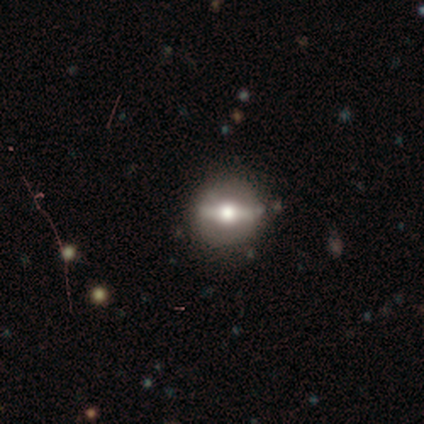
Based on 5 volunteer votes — A featured or disk galaxy (60%) viewed edge-on (67%) with a rounded central bulge (100%).

Vote fractions:
- Smooth or featured? featured or disk: 60% / smooth: 40% / star or artifact: 0%
- Edge-on disk? yes: 67% / no: 33%
- Edge-on bulge? rounded: 100% / boxy: 0% / none: 0%
- Merging? none: 60% / minor disturbance: 40% / major disturbance: 0% / merger: 0%